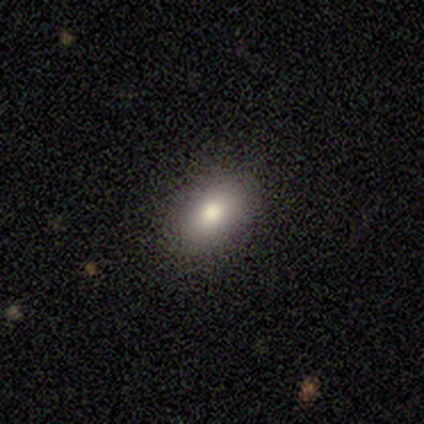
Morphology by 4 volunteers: This is likely a smooth galaxy (75%). How rounded: likely in between (67%). Merging: clearly none (100%).